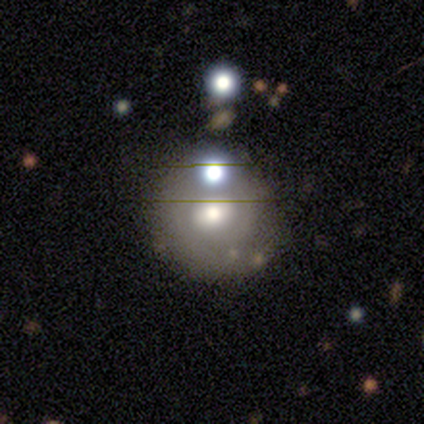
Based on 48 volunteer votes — Volunteers were most divided on "smooth or featured": smooth: 48%, featured or disk: 35%, star or artifact: 17%. More confident: how rounded — round (83%); merging — none (70%).